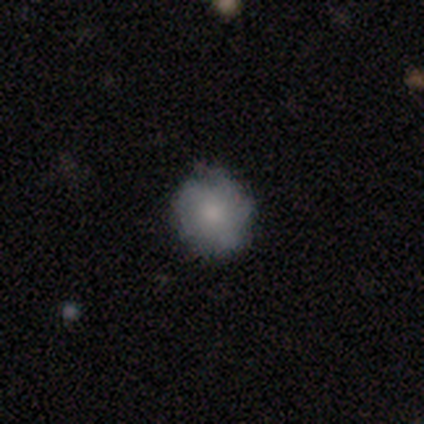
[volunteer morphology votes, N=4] A smooth galaxy with no disk features (50%) that is round (100%). Merging: none (67%).